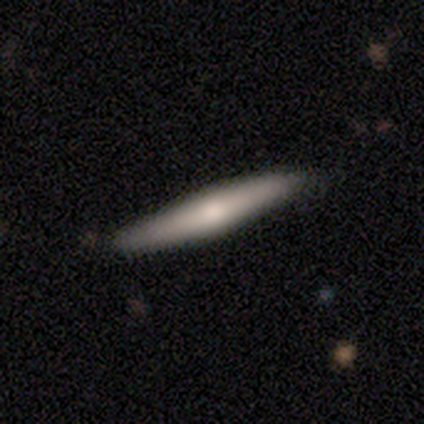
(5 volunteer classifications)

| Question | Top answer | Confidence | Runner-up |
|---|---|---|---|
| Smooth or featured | smooth | 40% | tied: featured or disk (40%) |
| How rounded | cigar-shaped | 100% | — |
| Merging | none | 75% | major disturbance (25%) |